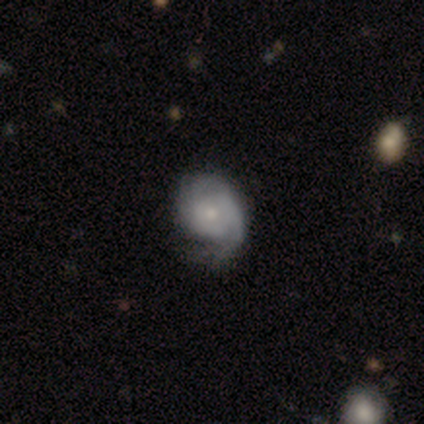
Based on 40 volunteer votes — featured or disk 85%, smooth 10%, star or artifact 5%. Down the decision tree: edge-on disk — no (100%); bar — no (82%); spiral arms — yes (97%); spiral arm count — can't tell (36%); spiral winding — tight (58%); bulge size — small (47%); merging — none (45%).